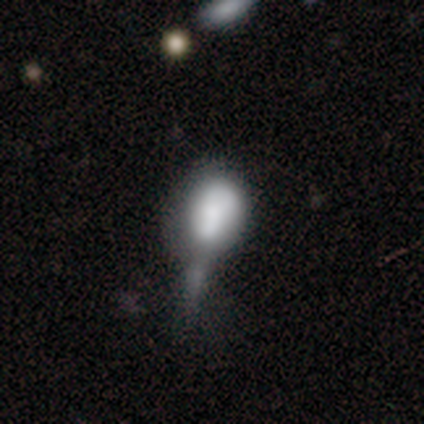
This is likely a smooth galaxy (66%). How rounded: likely in between (72%). Merging: marginally major disturbance (33%).